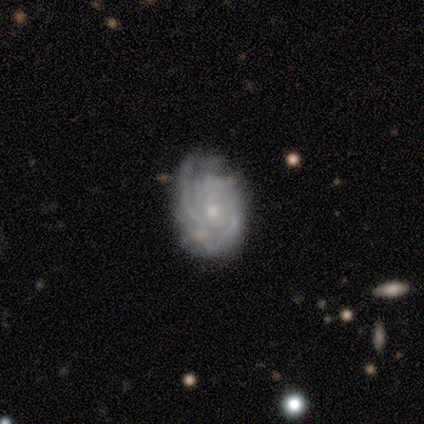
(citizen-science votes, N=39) Overall: featured or disk (85%). Edge-on disk: no (100%). Bar: no (82%). Spiral arms: yes (97%). Spiral arm count: can't tell (41%; 2 16%). Spiral winding: tight (59%; medium 28%). Bulge size: small (70%). Merging: none (57%; minor disturbance 30%).